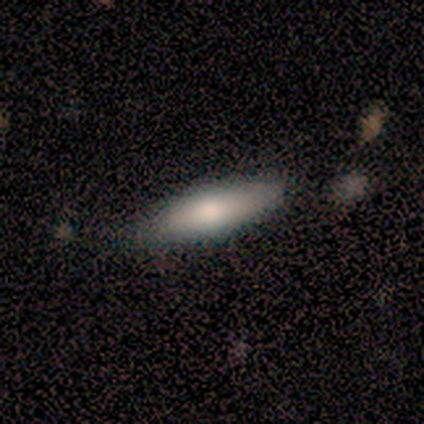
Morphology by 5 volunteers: smooth-or-featured: smooth: 60% | featured or disk: 40% | star or artifact: 0%
  how-rounded: cigar-shaped: 67% | in between: 33% | round: 0%
  merging: none: 100% | minor disturbance: 0% | major disturbance: 0% | merger: 0%